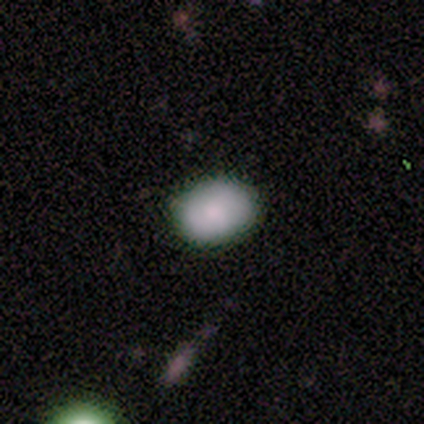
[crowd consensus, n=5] Volunteers were most divided on "how rounded" (2-way tie): round: 50%, in between: 50%, cigar-shaped: 0%. More confident: merging — none (100%); smooth or featured — smooth (80%).